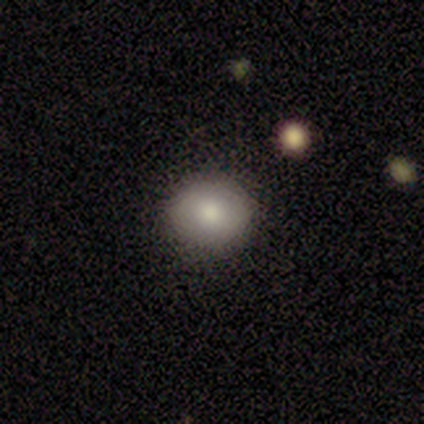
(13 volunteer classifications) A smooth galaxy with no disk features (92%) that is round (83%). Merging: none (92%).